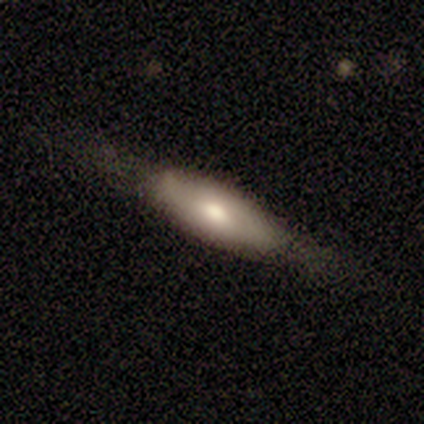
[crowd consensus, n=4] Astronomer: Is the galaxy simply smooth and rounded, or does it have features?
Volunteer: smooth — 100%.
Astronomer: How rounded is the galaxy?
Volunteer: in between — 100%.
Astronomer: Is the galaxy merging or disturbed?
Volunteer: none — 50%, tied with minor disturbance at 50%.